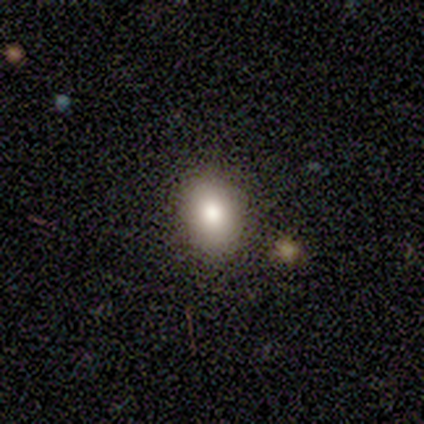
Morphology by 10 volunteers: Smooth or featured: smooth — 70% (featured or disk — 20%)
How rounded: in between — 57% (round — 43%)
Merging: none — 78% (minor disturbance — 11%)